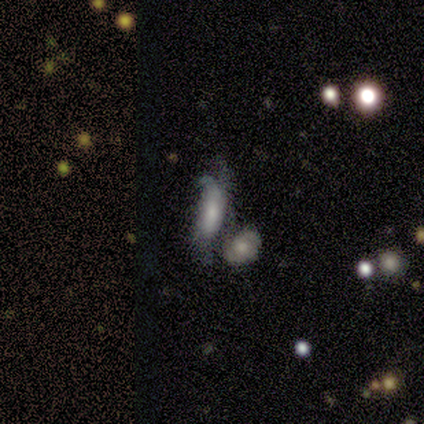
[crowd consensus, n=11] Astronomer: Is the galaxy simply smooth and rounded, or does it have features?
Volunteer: featured or disk — 73%.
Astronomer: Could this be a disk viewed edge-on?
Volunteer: no — 75%.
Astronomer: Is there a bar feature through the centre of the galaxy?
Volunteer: no — 50% (runner-up: weak, 33%).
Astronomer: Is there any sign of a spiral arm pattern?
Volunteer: yes — 83%.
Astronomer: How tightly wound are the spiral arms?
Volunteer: loose — 60% (runner-up: tight, 40%).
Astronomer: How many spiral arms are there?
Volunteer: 1 — 40% (runner-up: 2, 20%).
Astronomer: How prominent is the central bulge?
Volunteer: moderate — 33%, tied with small at 33%.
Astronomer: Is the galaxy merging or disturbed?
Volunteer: major disturbance — 36% (runner-up: none, 27%).